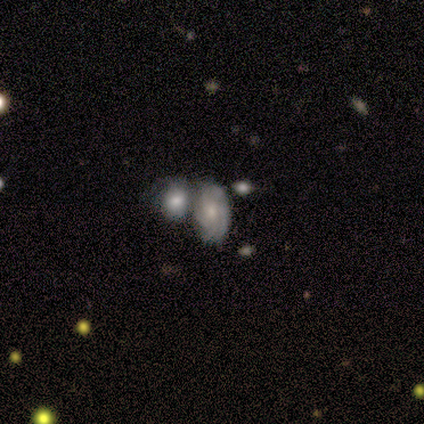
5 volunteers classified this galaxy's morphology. Smooth or featured? featured or disk (80%)
Edge-on disk? no (100%)
Bar? no (100%)
Spiral arms? yes (100%)
Spiral winding? medium (50%)
Spiral arm count? can't tell (50%)
Bulge size? moderate (75%)
Merging? merger (50%)